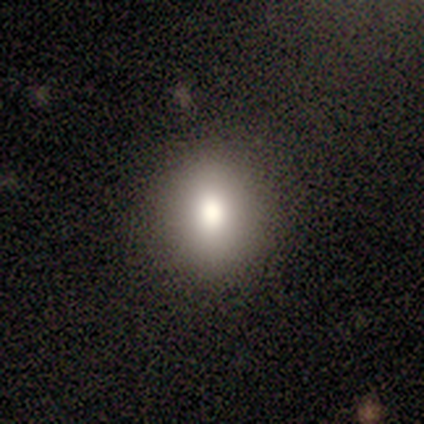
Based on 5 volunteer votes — This is clearly a smooth galaxy (80%). How rounded: likely round (75%). Merging: likely none (75%).